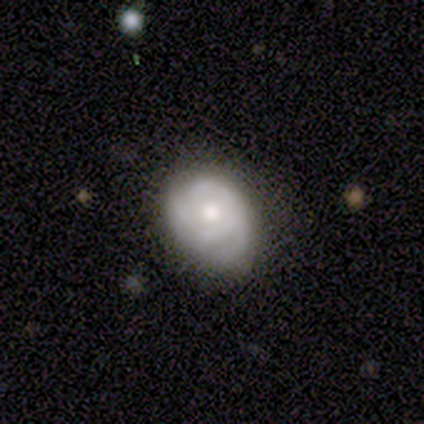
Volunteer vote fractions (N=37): Smooth or featured? 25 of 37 (68%) said featured or disk. Edge-on disk? 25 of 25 (100%) said no. Bar? 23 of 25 (92%) said no. Spiral arms? 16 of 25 (64%) said yes. Spiral winding? 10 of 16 (62%) said tight. Spiral arm count? 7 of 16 (44%) said can't tell. Bulge size? 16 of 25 (64%) said moderate. Merging? 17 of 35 (49%) said none.